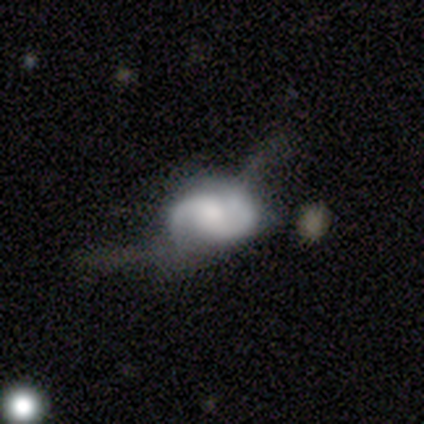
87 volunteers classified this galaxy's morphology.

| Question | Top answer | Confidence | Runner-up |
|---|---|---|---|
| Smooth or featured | featured or disk | 78% | smooth (16%) |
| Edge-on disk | no | 96% | yes (4%) |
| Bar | no | 60% | weak (34%) |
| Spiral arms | yes | 94% | no (6%) |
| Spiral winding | medium | 52% | loose (30%) |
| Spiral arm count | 2 | 95% | can't tell (3%) |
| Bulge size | moderate | 48% | small (22%) |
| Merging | major disturbance | 43% | minor disturbance (27%) |